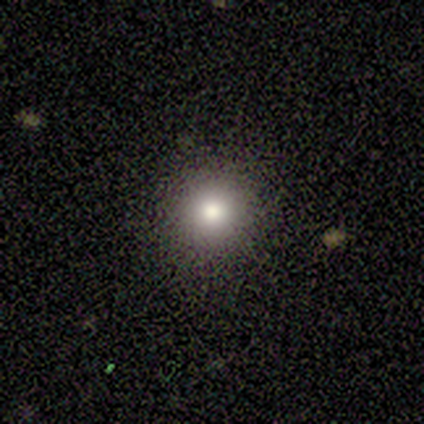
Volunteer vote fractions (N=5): A smooth galaxy with no disk features (80%) that is round (100%). Merging: none (100%).